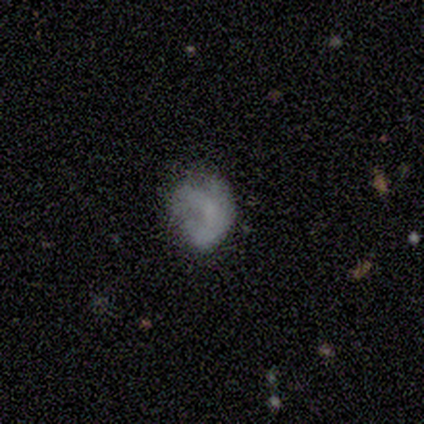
Smooth or featured? smooth (40%, tied with featured or disk)
How rounded? round (50%, tied with in between)
Merging? none (75%)